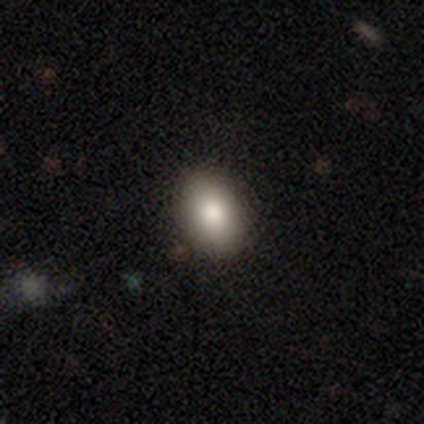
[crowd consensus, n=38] Smooth or featured? smooth (79%)
How rounded? in between (93%)
Merging? none (91%)